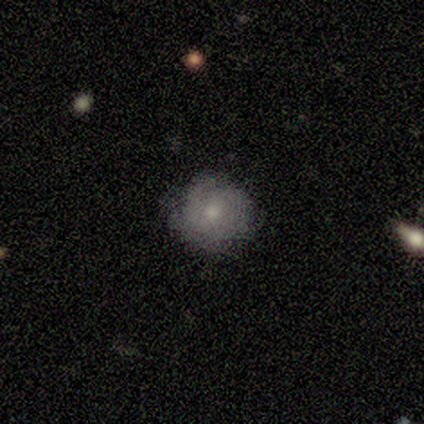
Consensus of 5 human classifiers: smooth 60%, featured or disk 20%, star or artifact 20%. Down the decision tree: how rounded — round (100%); merging — none (75%).